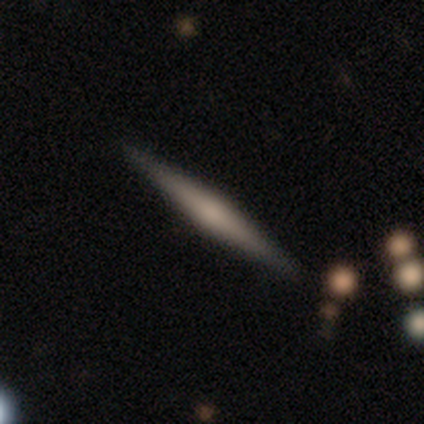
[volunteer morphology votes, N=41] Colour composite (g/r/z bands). It shows a featured or disk galaxy (61%) viewed edge-on (100%) with a rounded central bulge (72%). Merging: none (92%).